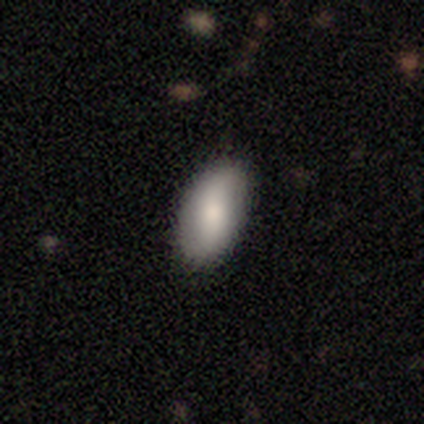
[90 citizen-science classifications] Smooth or featured?
  - smooth: 69% *
  - featured or disk: 23%
  - star or artifact: 8%
How rounded?
  - in between: 94% *
  - cigar-shaped: 5%
  - round: 2%
Merging?
  - none: 87% *
  - minor disturbance: 10%
  - major disturbance: 4%
  - merger: 0%